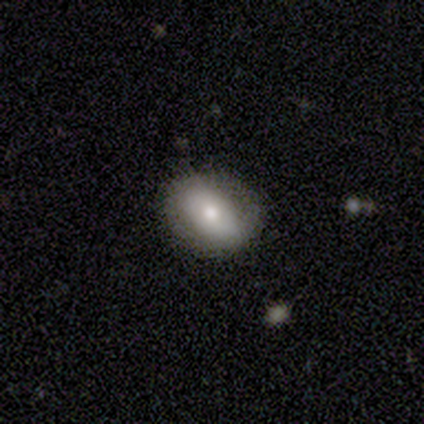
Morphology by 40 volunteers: smooth-or-featured: smooth: 60% | featured or disk: 35% | star or artifact: 5%
  how-rounded: in between: 71% | round: 29% | cigar-shaped: 0%
  merging: none: 89% | minor disturbance: 11% | major disturbance: 0% | merger: 0%